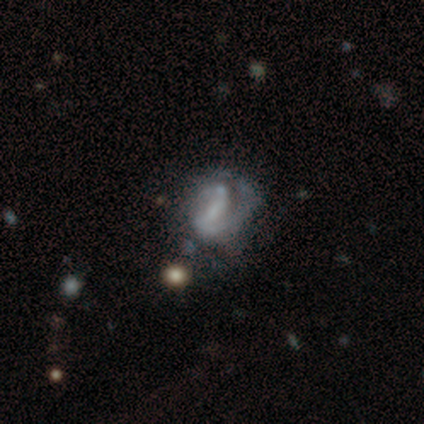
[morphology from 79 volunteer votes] featured or disk 67%, smooth 18%, star or artifact 15%. Down the decision tree: edge-on disk — no (96%); bar — strong (37%); spiral arms — yes (61%); spiral arm count — 2 (42%); spiral winding — loose (35%); bulge size — none (57%); merging — none (28%).